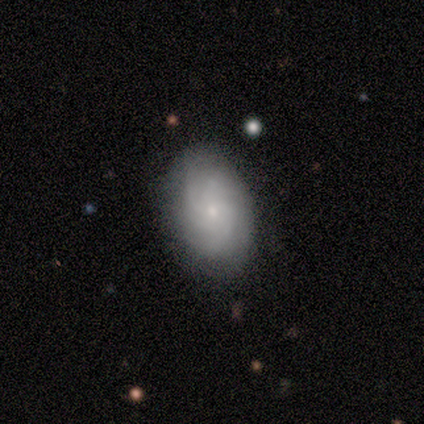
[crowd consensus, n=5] Q: Smooth or featured?
A: featured or disk (100%)
Q: Edge-on disk?
A: no (80%); runner-up: yes (20%)
Q: Bar?
A: no (100%)
Q: Spiral arms?
A: yes (100%)
Q: Spiral winding?
A: medium (75%); runner-up: tight (25%)
Q: Spiral arm count?
A: can't tell (50%); runner-up: 4 (25%)
Q: Bulge size?
A: small (100%)
Q: Merging?
A: none (80%); runner-up: minor disturbance (20%)